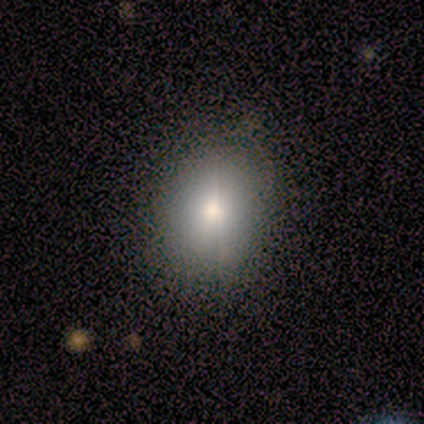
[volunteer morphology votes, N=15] smooth-or-featured: smooth: 100% | featured or disk: 0% | star or artifact: 0%
  how-rounded: in between: 53% | round: 47% | cigar-shaped: 0%
  merging: none: 87% | minor disturbance: 13% | major disturbance: 0% | merger: 0%